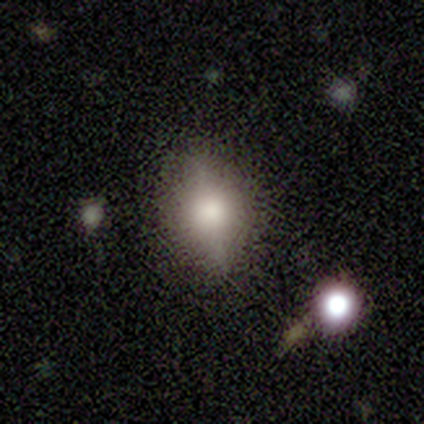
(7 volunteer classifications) smooth_or_featured: smooth (p=0.71) [alt: featured or disk p=0.29]
how_rounded: in between (p=0.80) [alt: round p=0.20]
merging: none (p=0.86) [alt: major disturbance p=0.14]